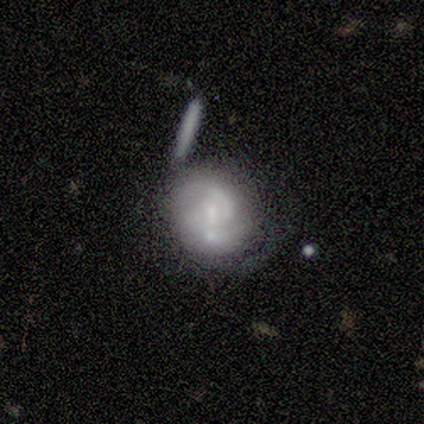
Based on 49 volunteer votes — Overall: featured or disk (82%). Edge-on disk: no (98%). Bar: weak (56%; no 38%). Spiral arms: yes (85%). Spiral arm count: 2 (70%). Spiral winding: medium (58%; tight 33%). Bulge size: small (67%). Merging: none (46%; merger 27%).